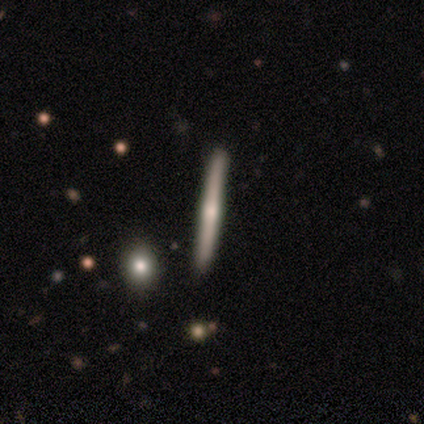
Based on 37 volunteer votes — This is clearly a featured or disk galaxy (84%). It is clearly viewed edge-on (97%). Edge-on bulge: clearly rounded (83%). Merging: clearly none (86%).